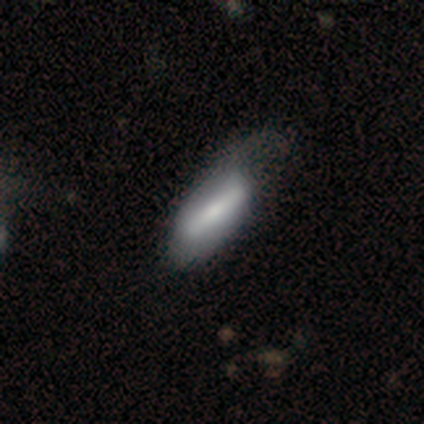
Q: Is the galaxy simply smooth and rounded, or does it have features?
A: smooth — 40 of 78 (51%).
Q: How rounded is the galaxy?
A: in between — 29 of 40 (72%).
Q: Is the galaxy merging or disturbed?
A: minor disturbance — 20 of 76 (26%).